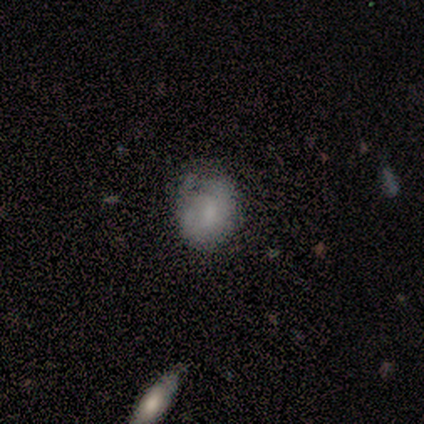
Volunteers were most divided on "how rounded": round: 67%, in between: 33%, cigar-shaped: 0%. More confident: merging — minor disturbance (75%); smooth or featured — smooth (60%).